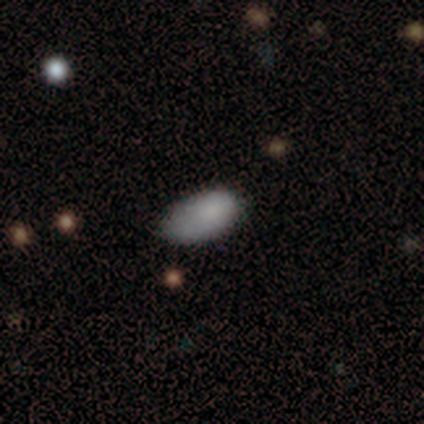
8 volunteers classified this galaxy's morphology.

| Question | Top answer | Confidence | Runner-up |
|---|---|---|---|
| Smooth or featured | smooth | 100% | — |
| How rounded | in between | 100% | — |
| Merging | none | 75% | minor disturbance (25%) |